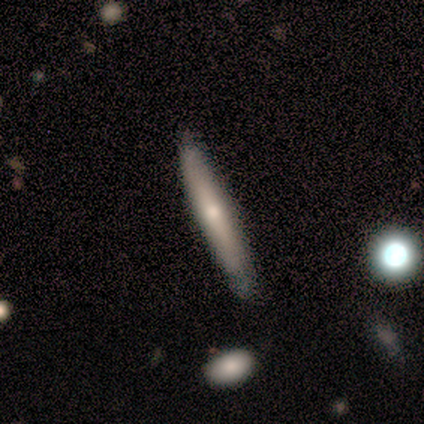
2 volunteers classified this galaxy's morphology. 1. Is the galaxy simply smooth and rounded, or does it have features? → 100% featured or disk, 0% smooth, 0% star or artifact.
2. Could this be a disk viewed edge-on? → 50% yes (tied), 50% no (tied).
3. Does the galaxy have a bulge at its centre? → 100% none, 0% boxy, 0% rounded.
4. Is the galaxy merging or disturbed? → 100% none, 0% minor disturbance, 0% major disturbance, 0% merger.